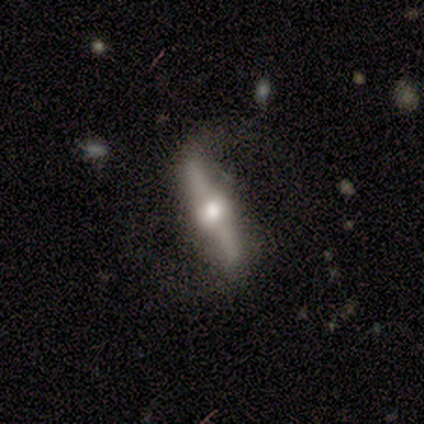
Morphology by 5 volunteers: smooth-or-featured: featured or disk: 60% | smooth: 40% | star or artifact: 0%
  disk-edge-on: yes: 100% | no: 0%
    edge-on-bulge: rounded: 100% | boxy: 0% | none: 0%
  merging: none: 40% (tied) | minor disturbance: 40% (tied) | major disturbance: 20% | merger: 0%